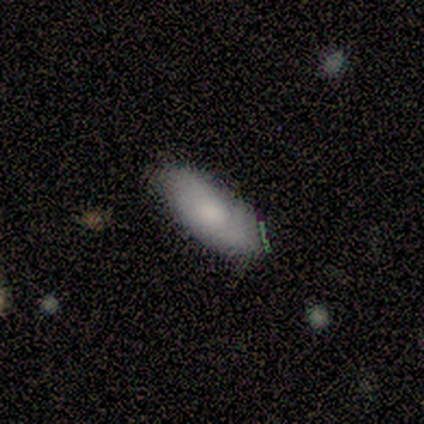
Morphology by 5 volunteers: Overall: smooth (100%). How rounded: in between (100%). Merging: none (100%).